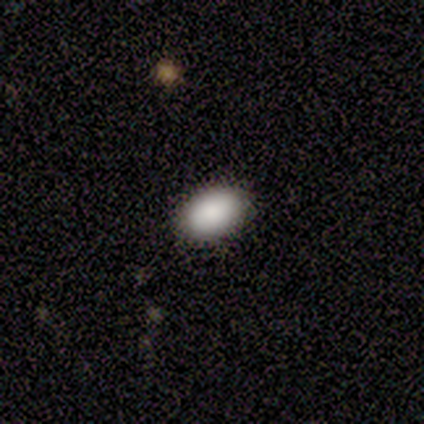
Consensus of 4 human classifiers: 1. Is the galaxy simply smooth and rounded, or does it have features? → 100% smooth, 0% featured or disk, 0% star or artifact.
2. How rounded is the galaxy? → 75% in between, 25% round, 0% cigar-shaped.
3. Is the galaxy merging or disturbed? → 100% none, 0% minor disturbance, 0% major disturbance, 0% merger.